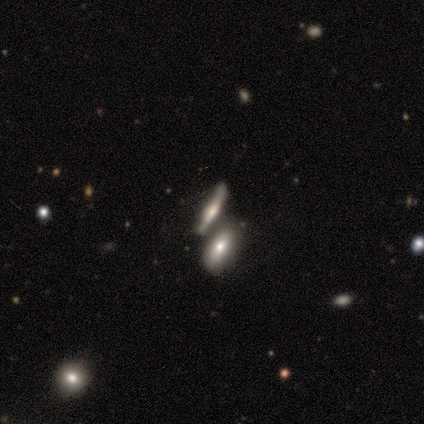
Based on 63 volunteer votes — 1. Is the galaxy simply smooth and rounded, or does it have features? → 56% featured or disk, 38% smooth, 6% star or artifact.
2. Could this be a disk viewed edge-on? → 86% yes, 14% no.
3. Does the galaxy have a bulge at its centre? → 77% rounded, 23% boxy, 0% none.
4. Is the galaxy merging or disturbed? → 41% merger, 37% none, 15% minor disturbance, 7% major disturbance.